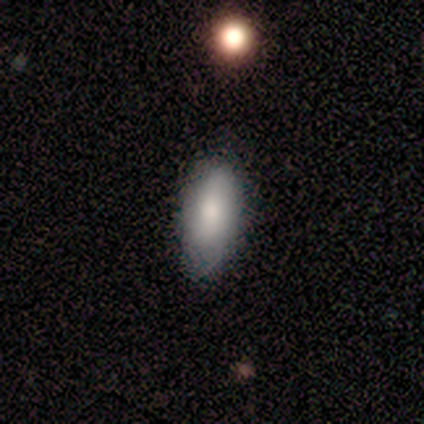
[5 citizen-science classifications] A smooth galaxy with no disk features (100%) that is in between round and cigar-shaped (100%). Merging: none (60%).